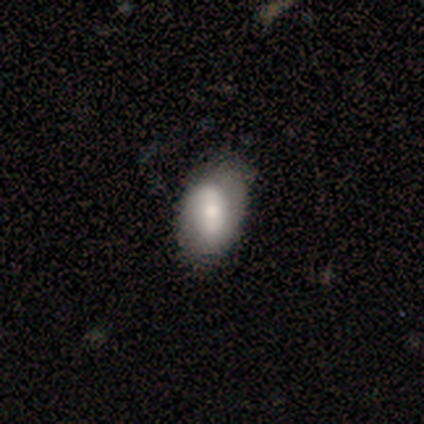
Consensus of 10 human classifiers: smooth_or_featured: smooth (p=0.70) [alt: featured or disk p=0.20]
how_rounded: in between (p=1.00)
merging: none (p=0.78) [alt: minor disturbance p=0.22]